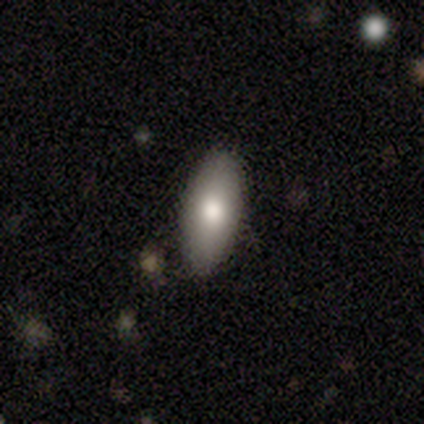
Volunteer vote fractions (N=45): smooth_or_featured: smooth (p=0.82) [alt: featured or disk p=0.09]
how_rounded: in between (p=0.89) [alt: cigar-shaped p=0.11]
merging: none (p=0.88) [alt: minor disturbance p=0.10]